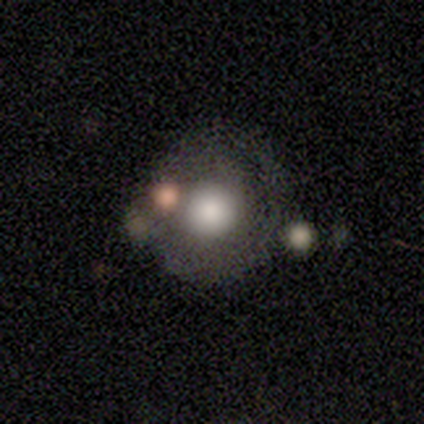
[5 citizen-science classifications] This appears to be a featured or disk galaxy (40%, tied with star or artifact) with no bar (100%), medium (100%) spiral arms (50%, tied with no) and a large central bulge (50%, tied with moderate). Merging: none (67%).